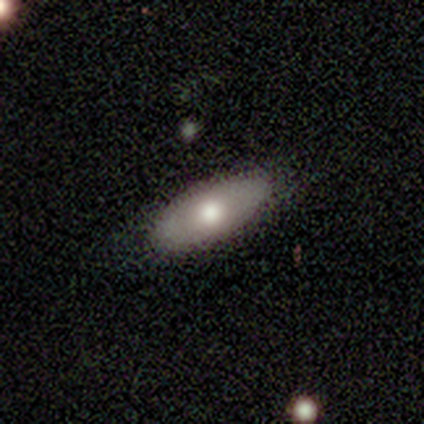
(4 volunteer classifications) Overall: smooth (50%, tied with featured or disk). How rounded: in between (100%). Merging: none (100%).